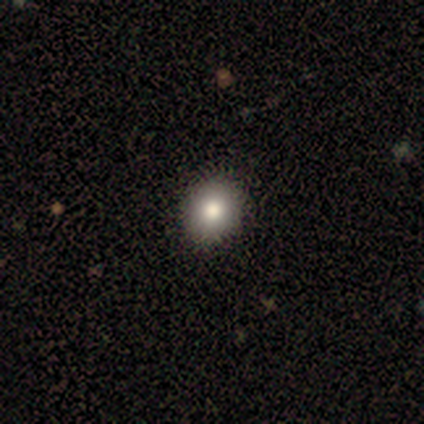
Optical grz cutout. It shows a featured or disk galaxy (100%) with no bar (100%), no spiral arms (100%) and a small central bulge (100%). Merging: none (100%).